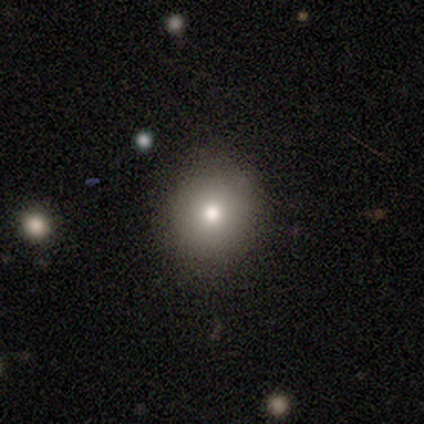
Morphology: type=smooth (75%); roundness=round (100%); merging=none (100%).